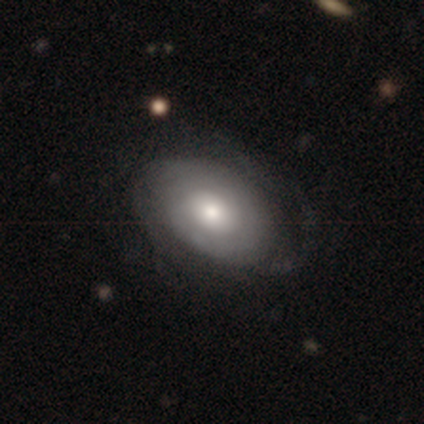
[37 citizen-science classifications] smooth-or-featured: featured or disk: 73% | smooth: 27% | star or artifact: 0%
  disk-edge-on: no: 96% | yes: 4%
    bar: no: 81% | weak: 12% | strong: 8%
    has-spiral-arms: yes: 62% | no: 38%
      spiral-winding: tight: 75% | medium: 19% | loose: 6%
      spiral-arm-count: can't tell: 56% | 2: 38% | 3: 6% | 1: 0% | 4: 0% | more than 4: 0%
    bulge-size: moderate: 65% | large: 27% | dominant: 4% | small: 4% | none: 0%
  merging: none: 27% | major disturbance: 22% | minor disturbance: 16% | merger: 3%